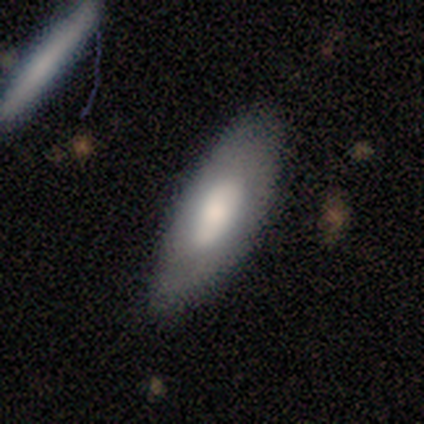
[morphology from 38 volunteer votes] Volunteers were most divided on "smooth or featured": smooth: 58%, featured or disk: 37%, star or artifact: 5%. More confident: merging — none (81%); how rounded — in between (73%).